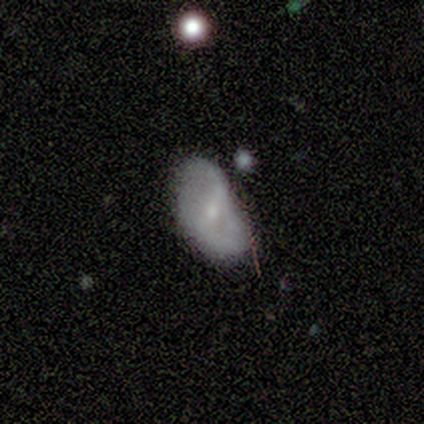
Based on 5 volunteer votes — Smooth or featured? 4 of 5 (80%) said featured or disk. Edge-on disk? 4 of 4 (100%) said no. Bar? 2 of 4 (50%, tied with weak) said strong. Spiral arms? 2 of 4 (50%, tied with no) said yes. Spiral winding? 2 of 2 (100%) said loose. Spiral arm count? 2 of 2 (100%) said 2. Bulge size? 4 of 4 (100%) said small. Merging? 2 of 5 (40%, tied with minor disturbance) said none.